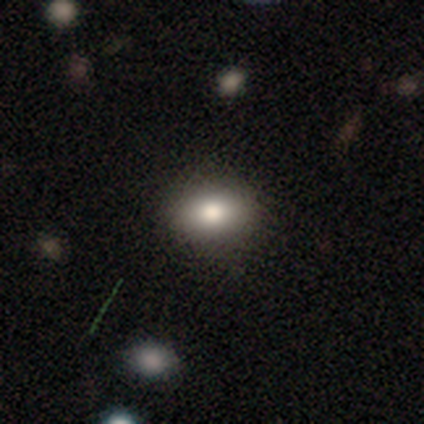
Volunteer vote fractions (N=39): This is clearly a smooth galaxy (85%). How rounded: likely in between (73%). Merging: likely none (76%).